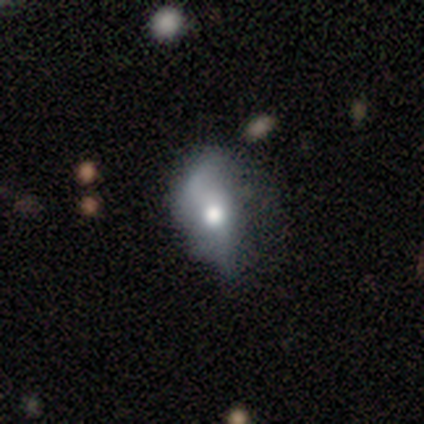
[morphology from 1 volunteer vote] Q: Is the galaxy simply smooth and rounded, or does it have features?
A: smooth — 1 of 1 (100%).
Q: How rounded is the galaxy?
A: in between — 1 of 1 (100%).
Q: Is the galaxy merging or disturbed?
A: major disturbance — 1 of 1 (100%).